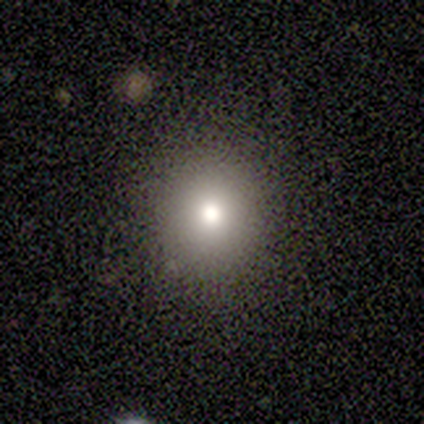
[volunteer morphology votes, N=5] This is likely a smooth galaxy (60%). How rounded: clearly round (100%). Merging: clearly none (100%).